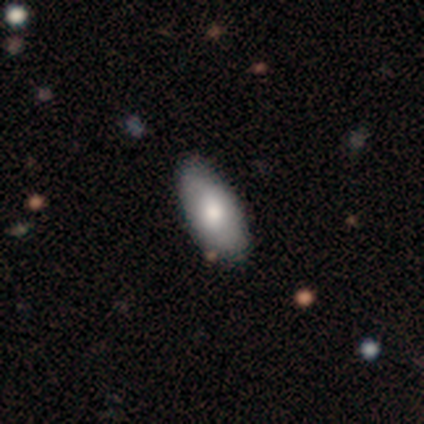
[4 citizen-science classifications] Morphology: type=smooth (50%, tied with featured or disk); roundness=in between (100%); merging=none (100%).